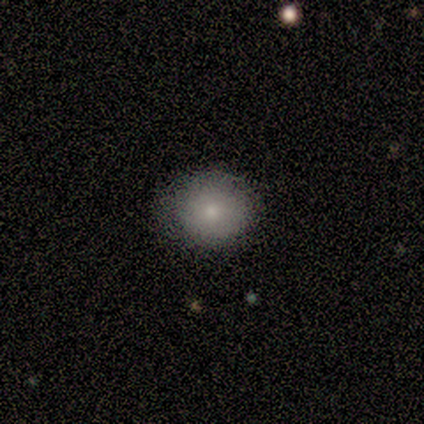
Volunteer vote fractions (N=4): Smooth or featured?
  - smooth: 50% *
  - featured or disk: 25%
  - star or artifact: 25%
How rounded?
  - in between: 100% *
  - round: 0%
  - cigar-shaped: 0%
Merging?
  - none: 67% *
  - minor disturbance: 33%
  - major disturbance: 0%
  - merger: 0%